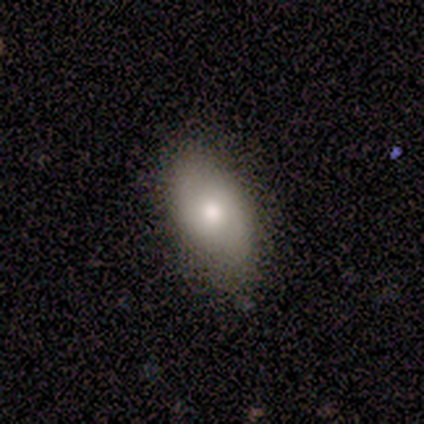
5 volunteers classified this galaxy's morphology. type=smooth (100%); roundness=in between (100%); merging=none (80%).